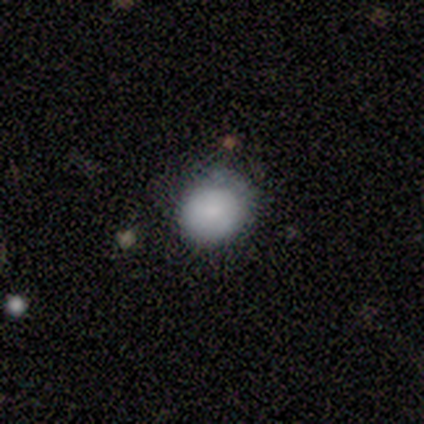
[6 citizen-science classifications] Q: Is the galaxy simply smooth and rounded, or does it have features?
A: smooth — 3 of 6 (50%, tied with star or artifact).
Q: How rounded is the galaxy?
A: round — 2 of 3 (67%).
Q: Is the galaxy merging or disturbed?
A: none — 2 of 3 (67%).